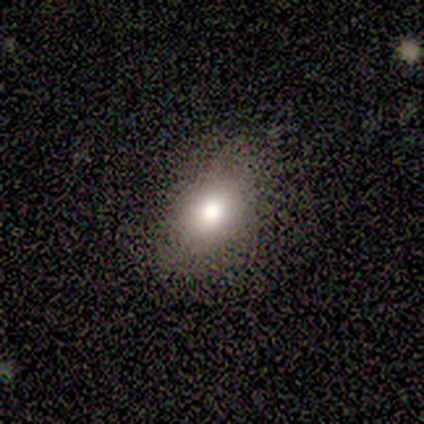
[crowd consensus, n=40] A smooth galaxy with no disk features (75%) that is in between round and cigar-shaped (67%).

Vote fractions:
- Smooth or featured? smooth: 75% / star or artifact: 22% / featured or disk: 2%
- How rounded? in between: 67% / round: 30% / cigar-shaped: 3%
- Merging? none: 74% / minor disturbance: 19% / major disturbance: 6% / merger: 0%